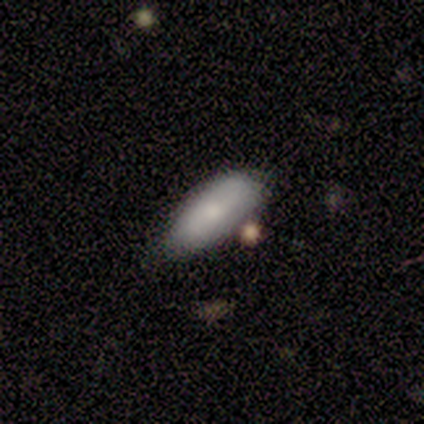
Smooth or featured? 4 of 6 (67%) said smooth. How rounded? 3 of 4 (75%) said in between. Merging? 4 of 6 (67%) said none.